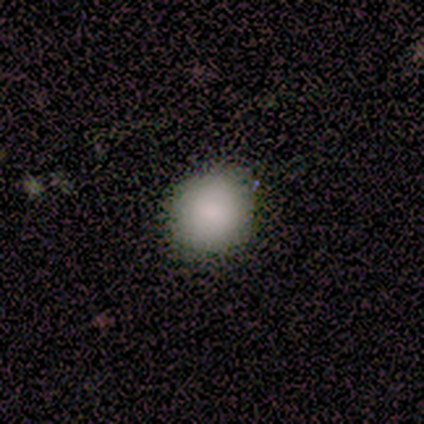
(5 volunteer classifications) Smooth or featured?
  - smooth: 100% *
  - featured or disk: 0%
  - star or artifact: 0%
How rounded?
  - round: 100% *
  - in between: 0%
  - cigar-shaped: 0%
Merging?
  - none: 100% *
  - minor disturbance: 0%
  - major disturbance: 0%
  - merger: 0%